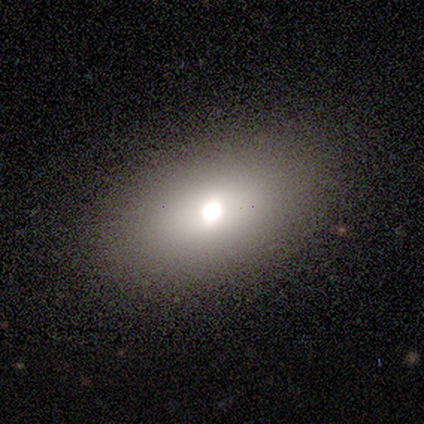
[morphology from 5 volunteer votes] Smooth or featured? smooth (60%)
How rounded? in between (100%)
Merging? none (100%)